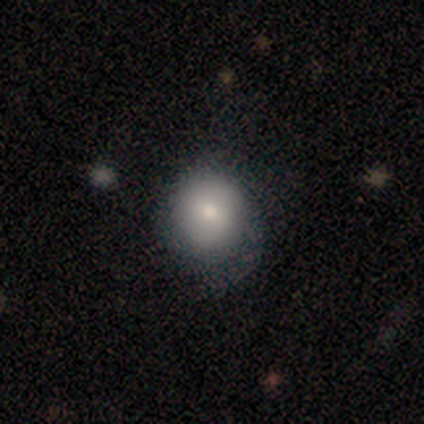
Q: Smooth or featured?
A: smooth (60%); runner-up: featured or disk (20%)
Q: How rounded?
A: round (67%); runner-up: in between (33%)
Q: Merging?
A: minor disturbance (50%); runner-up: none (25%)